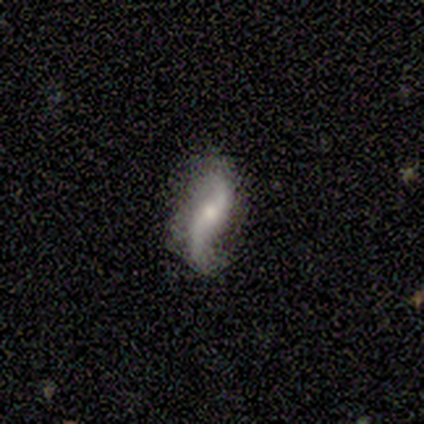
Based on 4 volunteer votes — smooth-or-featured: featured or disk: 100% | smooth: 0% | star or artifact: 0%
  disk-edge-on: no: 100% | yes: 0%
    bar: no: 75% | strong: 25% | weak: 0%
    has-spiral-arms: yes: 100% | no: 0%
      spiral-winding: loose: 100% | tight: 0% | medium: 0%
      spiral-arm-count: 2: 100% | 1: 0% | 3: 0% | 4: 0% | more than 4: 0% | can't tell: 0%
    bulge-size: moderate: 50% (tied) | small: 50% (tied) | dominant: 0% | large: 0% | none: 0%
  merging: none: 100% | minor disturbance: 0% | major disturbance: 0% | merger: 0%